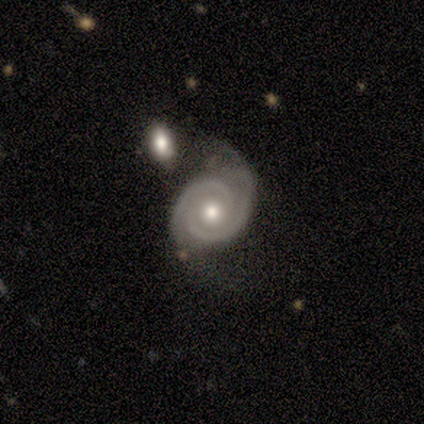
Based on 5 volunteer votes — Smooth or featured: featured or disk — 100%
Edge-on disk: no — 100%
Bar: no — 80% (strong — 20%)
Spiral arms: yes — 100%
Spiral winding: tight — 100%
Spiral arm count: 2 — 100%
Bulge size: moderate — 40% (tied with small — 40%)
Merging: minor disturbance — 40% (tied with merger — 40%)